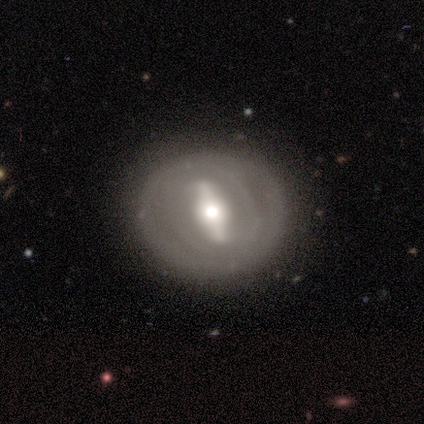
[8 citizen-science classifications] Smooth or featured?
  - featured or disk: 100% *
  - smooth: 0%
  - star or artifact: 0%
Edge-on disk?
  - no: 88% *
  - yes: 12%
Bar?
  - strong: 100% *
  - weak: 0%
  - no: 0%
Spiral arms?
  - yes: 71% *
  - no: 29%
Spiral winding?
  - tight: 80% *
  - loose: 20%
  - medium: 0%
Spiral arm count?
  - can't tell: 60% *
  - 2: 40%
  - 1: 0%
  - 3: 0%
  - 4: 0%
  - more than 4: 0%
Bulge size?
  - moderate: 57% *
  - large: 43%
  - dominant: 0%
  - small: 0%
  - none: 0%
Merging?
  - none: 88% *
  - minor disturbance: 12%
  - major disturbance: 0%
  - merger: 0%